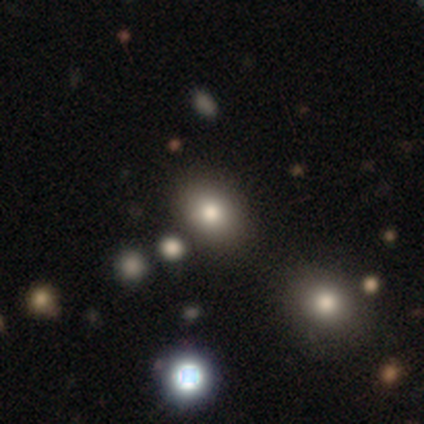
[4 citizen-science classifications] Smooth or featured? 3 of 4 (75%) said smooth. How rounded? 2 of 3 (67%) said in between. Merging? 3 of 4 (75%) said none.